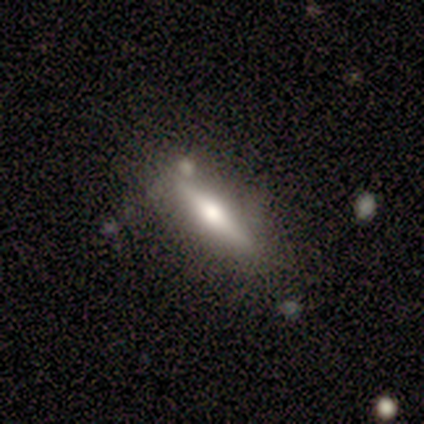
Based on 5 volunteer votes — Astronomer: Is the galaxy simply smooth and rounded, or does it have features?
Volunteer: smooth — 60% (runner-up: featured or disk, 40%).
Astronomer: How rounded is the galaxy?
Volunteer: cigar-shaped — 100%.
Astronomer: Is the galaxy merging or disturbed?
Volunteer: none — 80%.